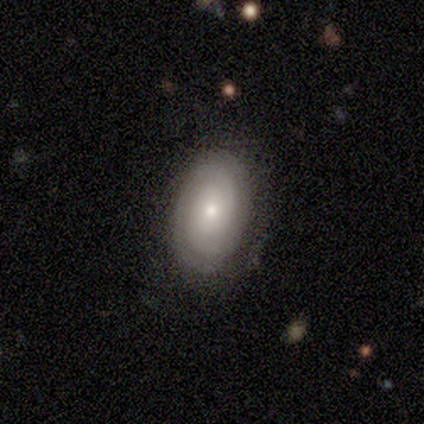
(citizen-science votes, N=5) Volunteers were most divided on "spiral arm count" (2-way tie): 3: 50%, can't tell: 50%, 1: 0%, 2: 0%, 4: 0%, more than 4: 0%. More confident: edge-on disk — no (100%); spiral arms — yes (100%); merging — none (100%); smooth or featured — featured or disk (80%); bar — no (75%); spiral winding — tight (75%); bulge size — moderate (75%).